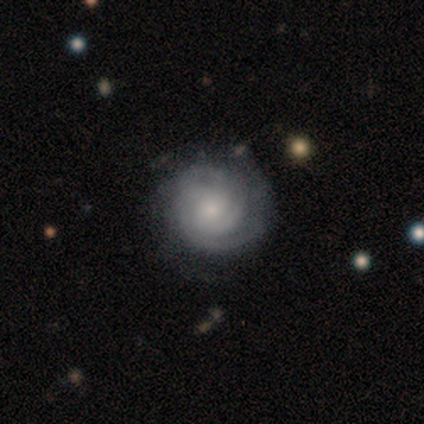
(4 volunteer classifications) smooth_or_featured: featured or disk (p=0.75) [alt: smooth p=0.25]
disk_edge_on: no (p=1.00)
bar: no (p=1.00)
has_spiral_arms: yes (p=1.00)
spiral_winding: tight (p=0.67) [alt: loose p=0.33]
spiral_arm_count: 2 (p=0.33) [tied with: 4 p=0.33, can't tell p=0.33]
bulge_size: small (p=1.00)
merging: none (p=0.50) [tied with: minor disturbance p=0.50]